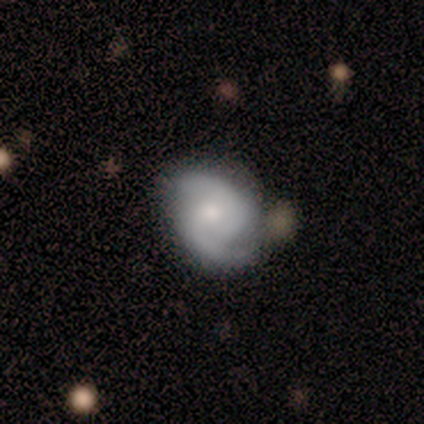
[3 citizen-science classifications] Overall: featured or disk (67%; smooth 33%). Edge-on disk: no (100%). Bar: no (100%). Spiral arms: yes (100%). Spiral arm count: 2 (100%). Spiral winding: tight (50%, tied with medium). Bulge size: small (100%). Merging: none (67%; minor disturbance 33%).